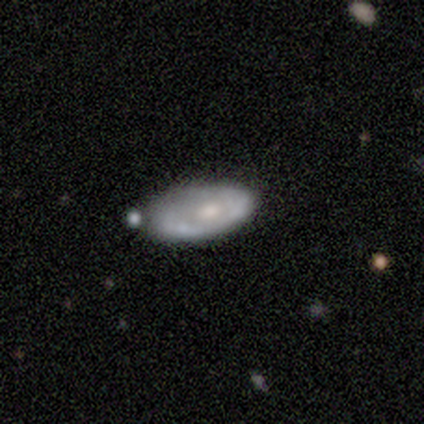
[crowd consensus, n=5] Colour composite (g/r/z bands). It shows a featured or disk galaxy (80%) with no bar (67%), no spiral arms (67%) and a moderate central bulge (67%). Merging: none (60%).